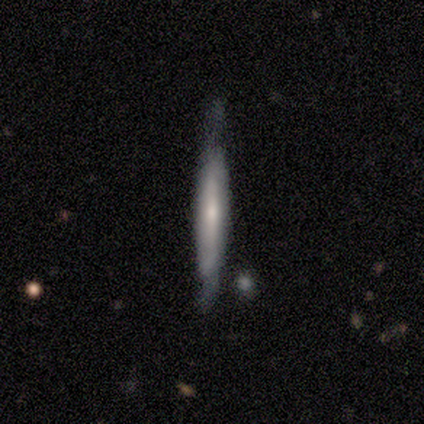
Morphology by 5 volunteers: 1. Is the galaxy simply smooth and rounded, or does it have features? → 60% featured or disk, 40% smooth, 0% star or artifact.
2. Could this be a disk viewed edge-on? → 67% yes, 33% no.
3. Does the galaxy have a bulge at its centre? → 50% none (tied), 50% rounded (tied), 0% boxy.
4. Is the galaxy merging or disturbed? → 80% none, 20% minor disturbance, 0% major disturbance, 0% merger.